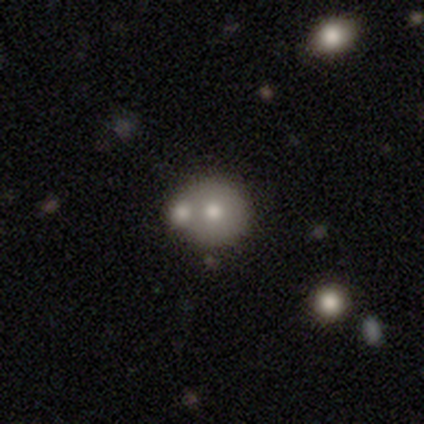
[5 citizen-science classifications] featured or disk 60%, smooth 40%, star or artifact 0%. Down the decision tree: edge-on disk — no (100%); bar — no (100%); spiral arms — no (100%); bulge size — moderate (100%); merging — none (60%).